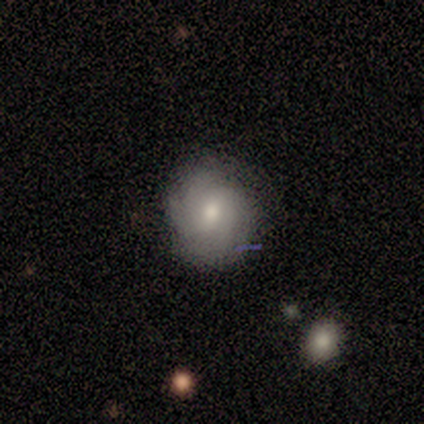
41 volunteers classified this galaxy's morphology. This appears to be a featured or disk galaxy (59%) with no bar (50%), tight (64%) spiral arms (92%) and a moderate central bulge (92%). Merging: none (68%).